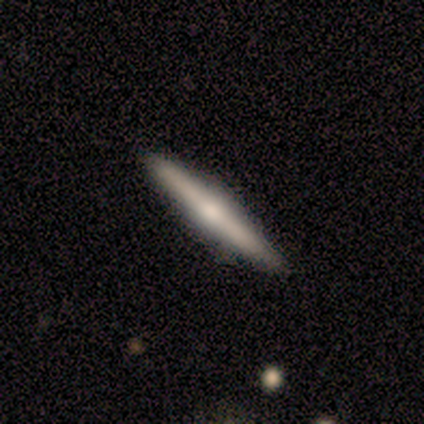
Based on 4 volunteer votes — This is possibly a smooth galaxy (50%, tied with featured or disk). How rounded: clearly cigar-shaped (100%). Merging: likely none (75%).